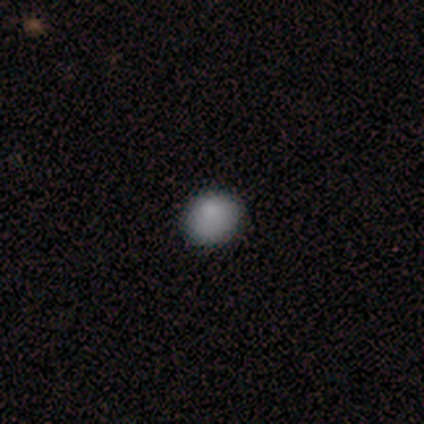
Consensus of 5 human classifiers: Overall: smooth (80%). How rounded: round (100%). Merging: none (80%).